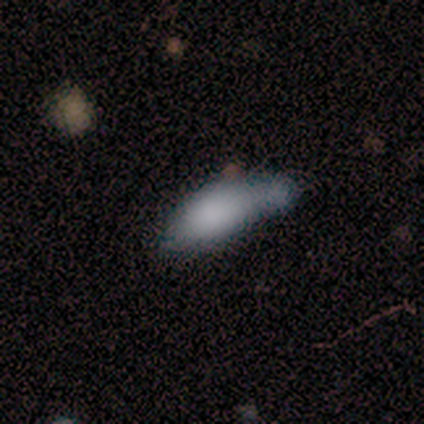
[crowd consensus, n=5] Volunteers were most divided on "merging": minor disturbance: 40%, none: 20%, major disturbance: 20%, merger: 20%. More confident: smooth or featured — smooth (100%); how rounded — in between (100%).